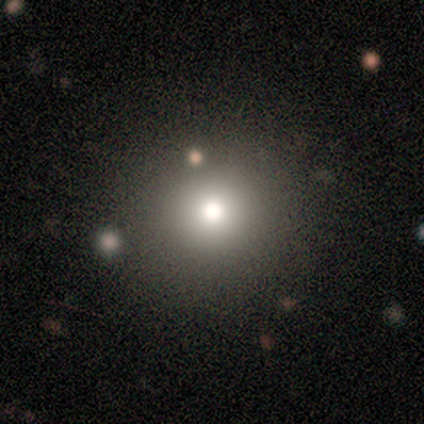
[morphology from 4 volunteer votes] Q: Smooth or featured?
A: smooth (100%)
Q: How rounded?
A: round (75%); runner-up: in between (25%)
Q: Merging?
A: none (75%); runner-up: minor disturbance (25%)